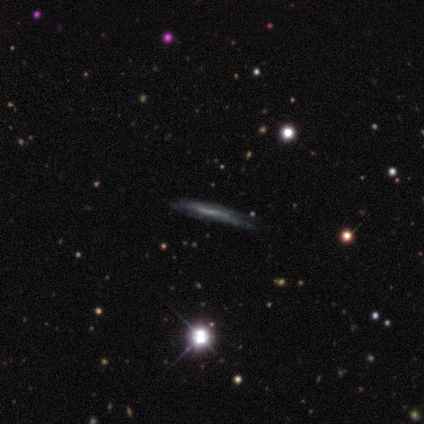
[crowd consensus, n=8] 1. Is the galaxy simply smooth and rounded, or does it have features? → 75% featured or disk, 12% smooth, 12% star or artifact.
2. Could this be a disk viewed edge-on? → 67% yes, 33% no.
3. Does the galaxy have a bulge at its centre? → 50% none, 25% boxy, 25% rounded.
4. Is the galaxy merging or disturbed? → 57% none, 43% minor disturbance, 0% major disturbance, 0% merger.